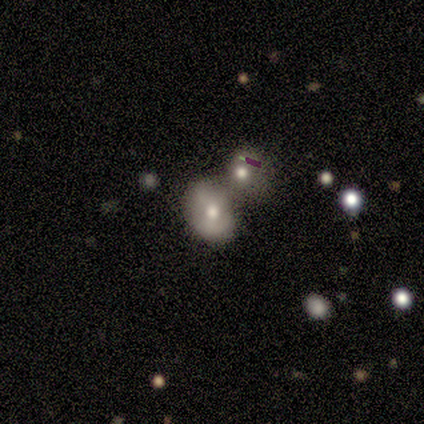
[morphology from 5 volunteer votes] Volunteers were most divided on "smooth or featured": smooth: 60%, featured or disk: 40%, star or artifact: 0%. More confident: how rounded — round (67%); merging — merger (60%).